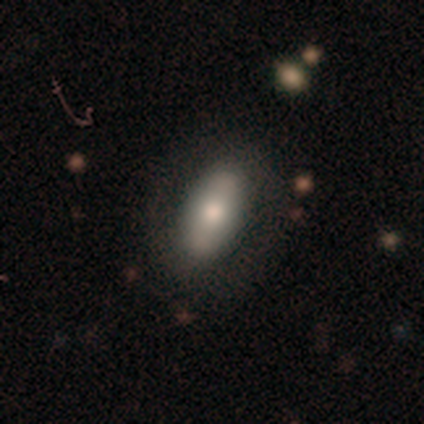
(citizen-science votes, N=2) Q: Smooth or featured?
A: smooth (50%); tied with: featured or disk (50%)
Q: How rounded?
A: in between (100%)
Q: Merging?
A: none (50%); tied with: major disturbance (50%)